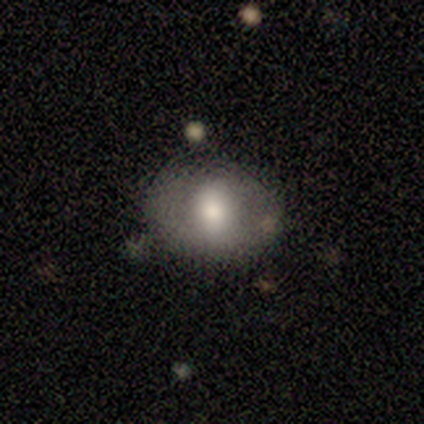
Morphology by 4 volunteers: smooth_or_featured: smooth (p=0.50) [tied with: featured or disk p=0.50]
how_rounded: in between (p=1.00)
merging: none (p=1.00)